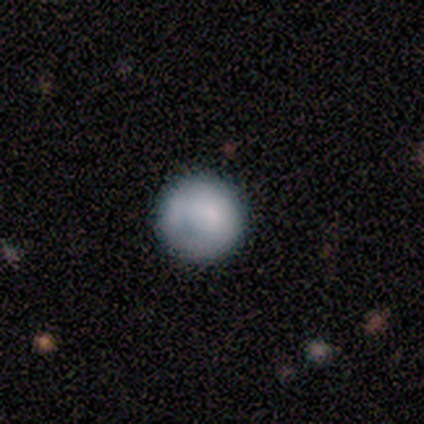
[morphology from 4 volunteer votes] Consensus on every question: smooth or featured — smooth (100%); how rounded — round (100%); merging — none (100%).